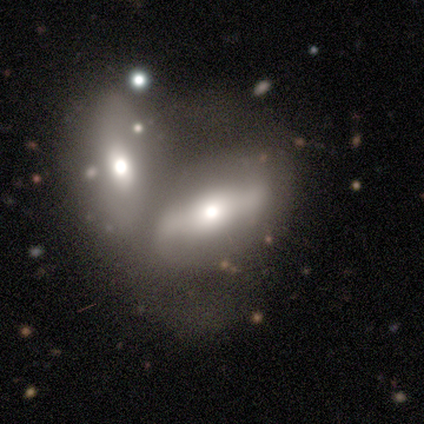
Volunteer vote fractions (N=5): A featured or disk galaxy (60%) with a strong bar (50%, tied with no), 2 (100%) loose (100%) spiral arms (50%, tied with no) and a moderate central bulge (100%).

Vote fractions:
- Smooth or featured? featured or disk: 60% / smooth: 40% / star or artifact: 0%
- Edge-on disk? no: 67% / yes: 33%
- Bar? strong: 50% (tied) / no: 50% (tied) / weak: 0%
- Spiral arms? yes: 50% (tied) / no: 50% (tied)
- Spiral winding? loose: 100% / tight: 0% / medium: 0%
- Spiral arm count? 2: 100% / 1: 0% / 3: 0% / 4: 0% / more than 4: 0% / can't tell: 0%
- Bulge size? moderate: 100% / dominant: 0% / large: 0% / small: 0% / none: 0%
- Merging? merger: 80% / major disturbance: 20% / none: 0% / minor disturbance: 0%